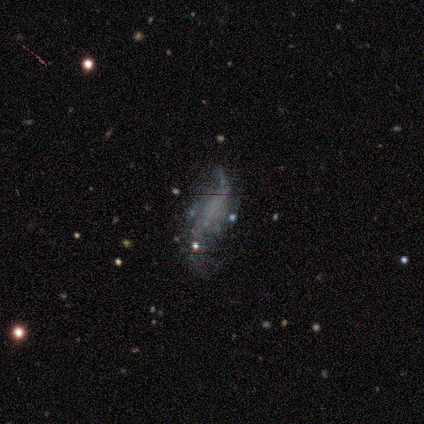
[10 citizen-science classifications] A featured or disk galaxy (70%) with no bar (67%), 2 (75%) loose (100%) spiral arms (67%) and no central bulge (100%). Merging: none (50%).